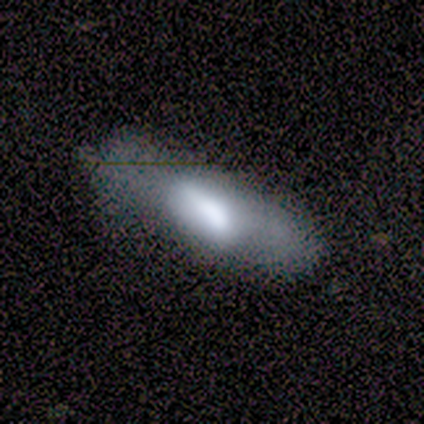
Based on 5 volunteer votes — This appears to be a smooth galaxy with no disk features (60%) that is cigar-shaped (67%). Merging: none (50%, tied with minor disturbance).